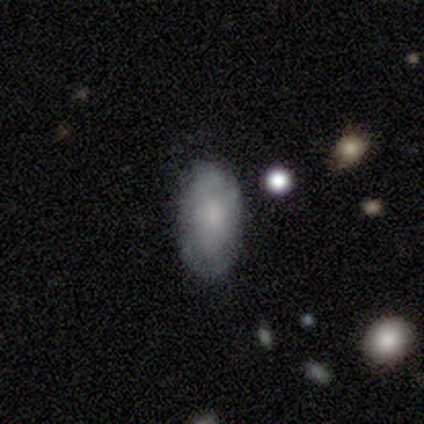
Smooth or featured?
  - smooth: 63% *
  - featured or disk: 37%
  - star or artifact: 0%
How rounded?
  - in between: 96% *
  - round: 4%
  - cigar-shaped: 0%
Merging?
  - none: 79% *
  - minor disturbance: 16%
  - major disturbance: 5%
  - merger: 0%